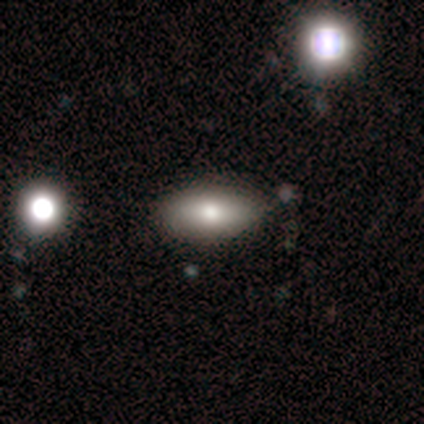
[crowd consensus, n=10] Smooth or featured?
  - smooth: 100% *
  - featured or disk: 0%
  - star or artifact: 0%
How rounded?
  - in between: 80% *
  - cigar-shaped: 20%
  - round: 0%
Merging?
  - none: 90% *
  - minor disturbance: 10%
  - major disturbance: 0%
  - merger: 0%